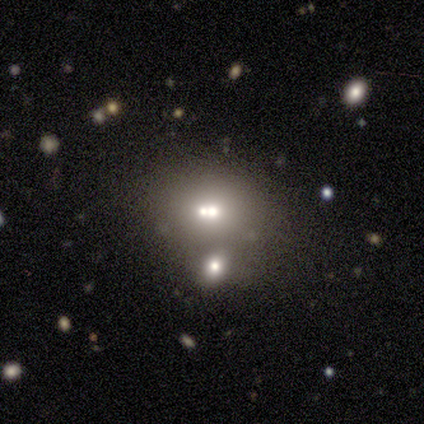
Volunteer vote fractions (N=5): Morphology: type=smooth (60%); roundness=round (67%); merging=merger (100%).